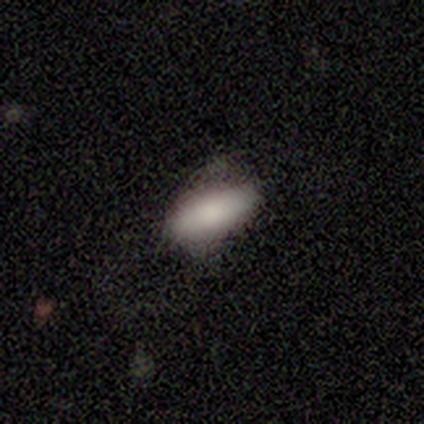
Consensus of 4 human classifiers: This appears to be a smooth galaxy with no disk features (100%) that is in between round and cigar-shaped (75%). Merging: minor disturbance (50%).